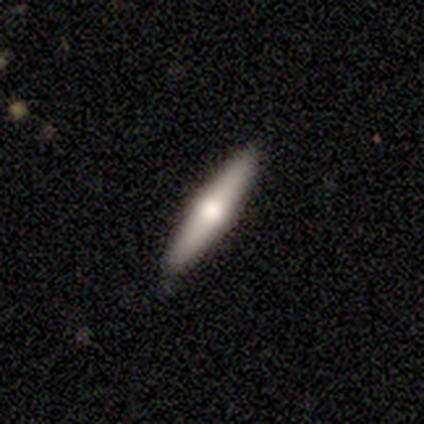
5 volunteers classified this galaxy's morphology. This is likely a featured or disk galaxy (60%). It is clearly viewed edge-on (100%). Edge-on bulge: clearly rounded (100%). Merging: clearly none (80%).